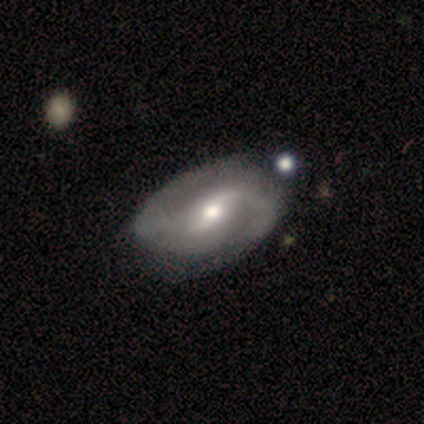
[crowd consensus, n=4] smooth_or_featured: featured or disk (p=0.75) [alt: star or artifact p=0.25]
disk_edge_on: no (p=1.00)
bar: strong (p=0.33) [tied with: weak p=0.33, no p=0.33]
has_spiral_arms: yes (p=1.00)
spiral_winding: tight (p=0.33) [tied with: medium p=0.33, loose p=0.33]
spiral_arm_count: 2 (p=1.00)
bulge_size: moderate (p=0.67) [alt: small p=0.33]
merging: minor disturbance (p=0.67) [alt: none p=0.33]